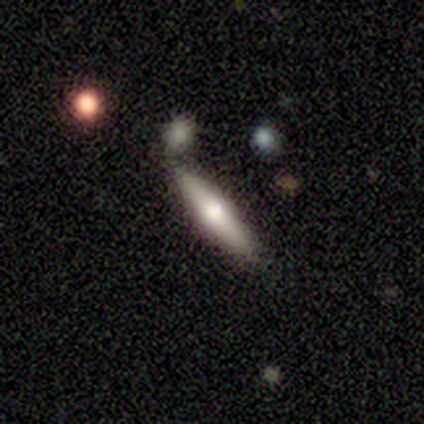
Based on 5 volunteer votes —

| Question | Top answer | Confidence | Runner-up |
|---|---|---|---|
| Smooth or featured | featured or disk | 60% | smooth (40%) |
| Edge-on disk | yes | 67% | no (33%) |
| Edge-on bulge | rounded | 100% | — |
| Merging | none | 100% | — |